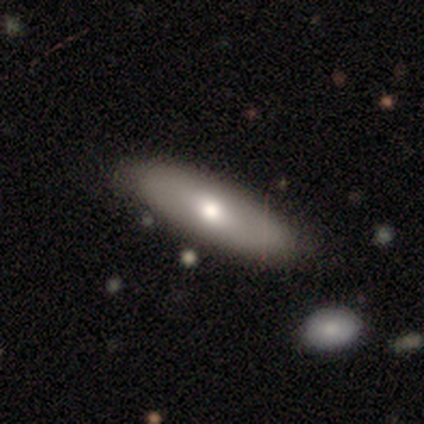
A smooth galaxy with no disk features (44%, tied with featured or disk) that is in between round and cigar-shaped (50%, tied with cigar-shaped). Merging: none (88%).